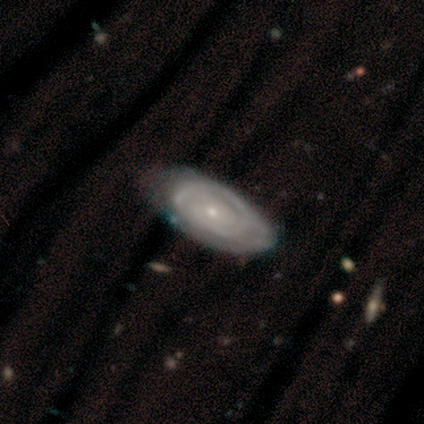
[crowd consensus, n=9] This appears to be a featured or disk galaxy (78%) with no bar (86%), 2 (50%) tight (83%) spiral arms (86%) and a small central bulge (86%). Merging: none (67%).